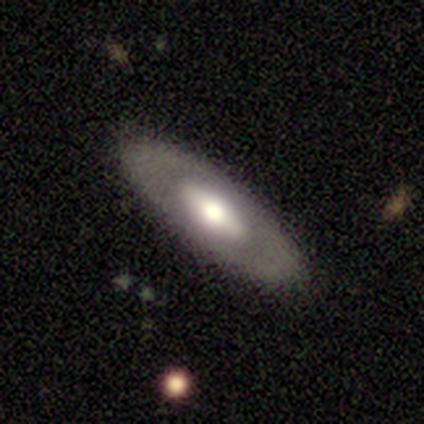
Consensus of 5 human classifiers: Volunteers were most divided on "bar" (3-way tie): strong: 33%, weak: 33%, no: 33%. More confident: edge-on disk — no (100%); spiral arms — no (100%); merging — none (100%); bulge size — large (67%); smooth or featured — featured or disk (60%).